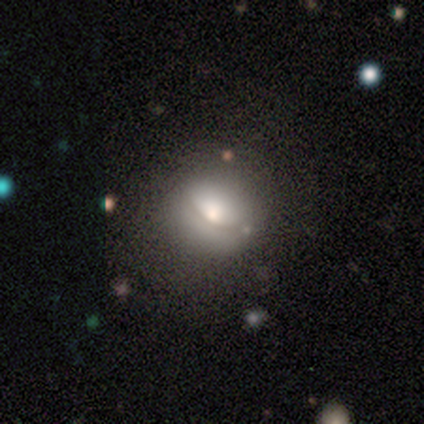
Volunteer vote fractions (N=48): A smooth galaxy with no disk features (65%) that is round (71%). Merging: none (78%).